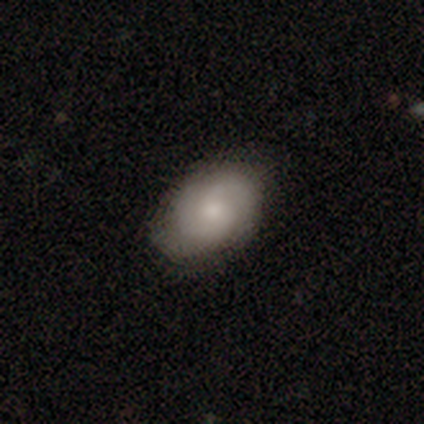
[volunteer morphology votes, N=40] smooth_or_featured: smooth (p=0.55) [alt: featured or disk p=0.45]
how_rounded: in between (p=0.95) [alt: round p=0.05]
merging: none (p=0.80) [alt: minor disturbance p=0.15]